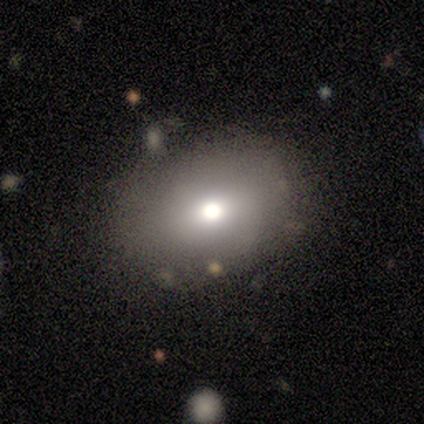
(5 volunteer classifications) smooth-or-featured: smooth: 60% | star or artifact: 40% | featured or disk: 0%
  how-rounded: in between: 67% | round: 33% | cigar-shaped: 0%
  merging: none: 100% | minor disturbance: 0% | major disturbance: 0% | merger: 0%